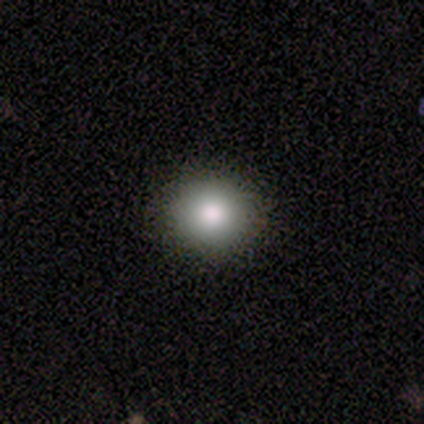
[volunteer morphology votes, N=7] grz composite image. It shows a smooth galaxy with no disk features (86%) that is round (100%). Merging: none (100%).